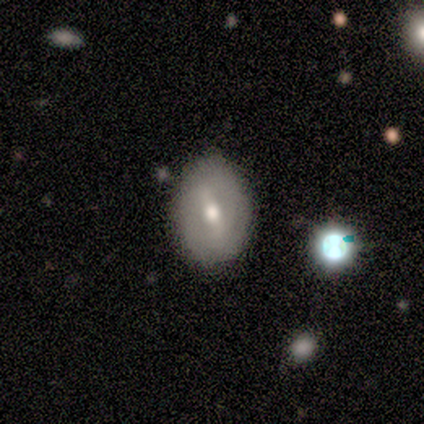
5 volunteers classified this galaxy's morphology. Overall: featured or disk (60%; smooth 20%). Edge-on disk: no (100%). Bar: weak (67%; strong 33%). Spiral arms: no (100%). Bulge size: moderate (100%). Merging: none (50%; minor disturbance 25%).